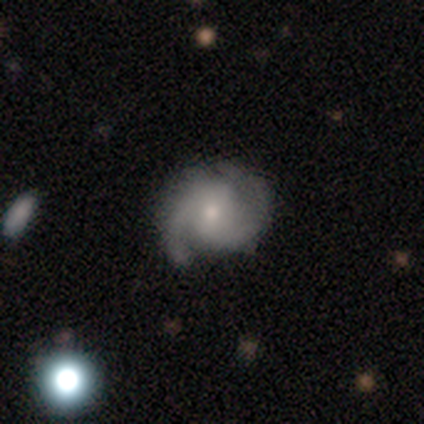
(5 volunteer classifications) Smooth or featured: featured or disk — 100%
Edge-on disk: no — 100%
Bar: no — 60% (strong — 20%)
Spiral arms: yes — 100%
Spiral winding: tight — 60% (medium — 20%)
Spiral arm count: 2 — 80% (3 — 20%)
Bulge size: small — 80% (moderate — 20%)
Merging: minor disturbance — 60% (none — 40%)